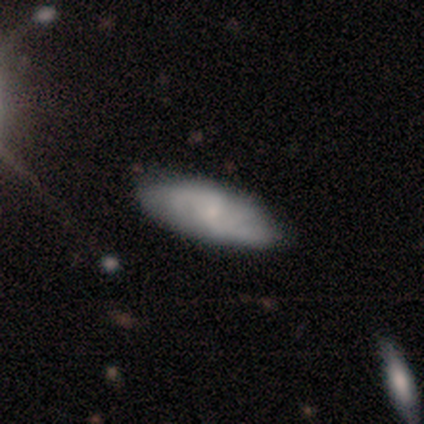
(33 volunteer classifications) smooth 42% (tied), featured or disk 42% (tied), star or artifact 15%. Down the decision tree: how rounded — in between (79%); merging — none (64%).